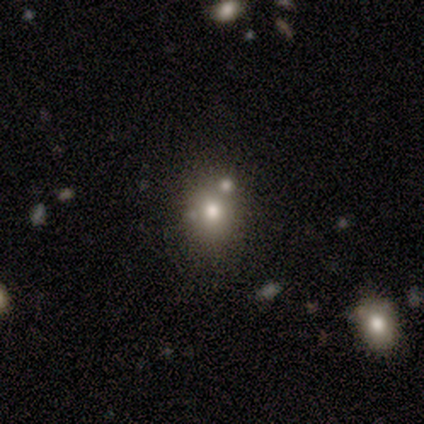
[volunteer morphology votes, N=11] smooth 73%, star or artifact 18%, featured or disk 9%. Down the decision tree: how rounded — round (62%); merging — none (89%).